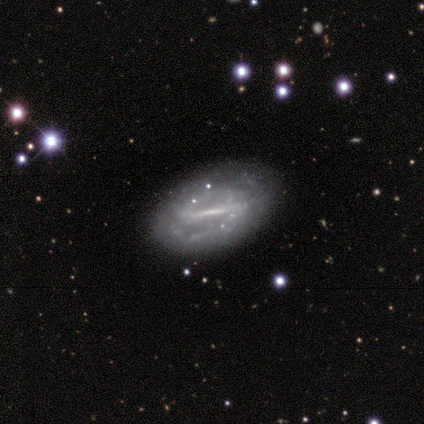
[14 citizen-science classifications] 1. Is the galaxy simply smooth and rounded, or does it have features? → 86% featured or disk, 14% smooth, 0% star or artifact.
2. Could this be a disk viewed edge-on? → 100% no, 0% yes.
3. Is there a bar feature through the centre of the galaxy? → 58% strong, 42% weak, 0% no.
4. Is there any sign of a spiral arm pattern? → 67% yes, 33% no.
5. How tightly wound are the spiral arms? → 50% medium, 38% loose, 12% tight.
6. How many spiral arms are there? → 88% 2, 12% can't tell, 0% 1, 0% 3, 0% 4, 0% more than 4.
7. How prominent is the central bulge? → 50% none, 33% small, 8% large, 8% moderate, 0% dominant.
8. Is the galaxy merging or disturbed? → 57% none, 36% minor disturbance, 7% merger, 0% major disturbance.